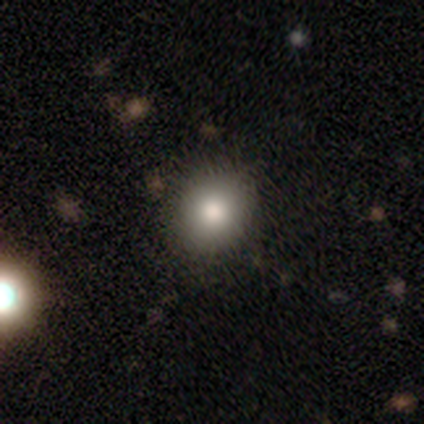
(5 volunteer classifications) Morphology: type=smooth (80%); roundness=round (75%); merging=none (100%).